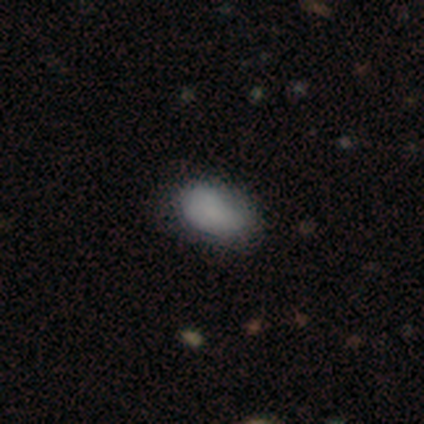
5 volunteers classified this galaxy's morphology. type=smooth (80%); roundness=in between (100%); merging=none (75%).